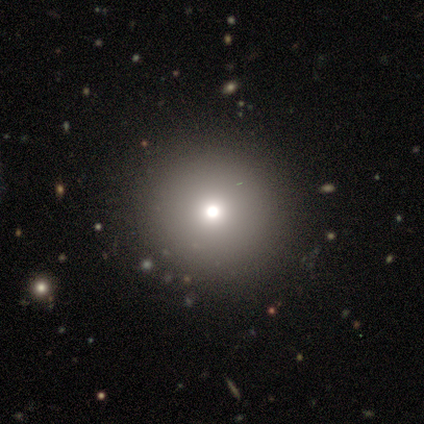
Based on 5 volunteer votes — smooth-or-featured: smooth: 40% (tied) | star or artifact: 40% (tied) | featured or disk: 20%
  how-rounded: round: 100% | in between: 0% | cigar-shaped: 0%
  merging: none: 100% | minor disturbance: 0% | major disturbance: 0% | merger: 0%